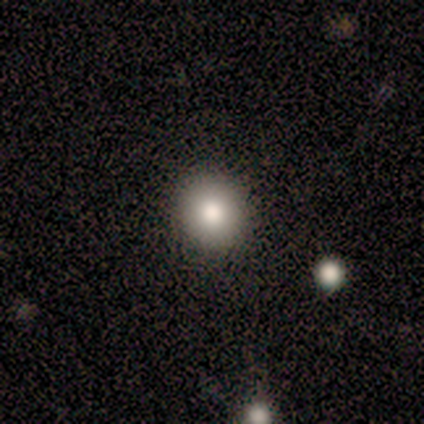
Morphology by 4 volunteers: Smooth or featured: smooth — 50% (tied with star or artifact — 50%)
How rounded: round — 100%
Merging: none — 50% (tied with major disturbance — 50%)